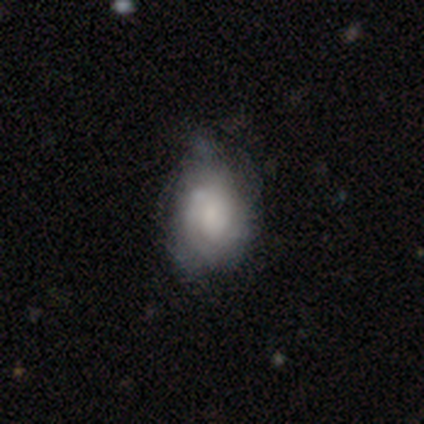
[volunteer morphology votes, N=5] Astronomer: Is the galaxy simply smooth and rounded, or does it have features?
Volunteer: smooth — 40%, tied with featured or disk at 40%.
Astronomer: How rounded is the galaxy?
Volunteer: round — 50%, tied with in between at 50%.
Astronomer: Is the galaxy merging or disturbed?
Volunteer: none — 75%.